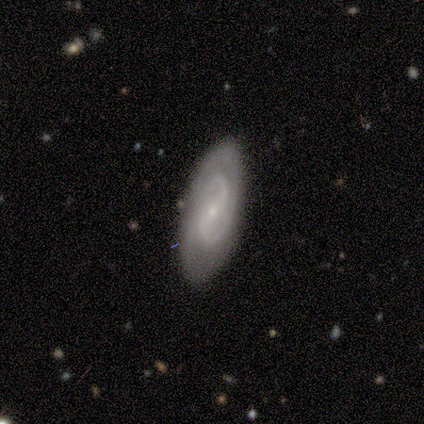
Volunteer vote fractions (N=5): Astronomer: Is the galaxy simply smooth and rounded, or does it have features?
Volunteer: featured or disk — 80%.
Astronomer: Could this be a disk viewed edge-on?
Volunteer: no — 100%.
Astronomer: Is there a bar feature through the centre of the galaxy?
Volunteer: weak — 50%.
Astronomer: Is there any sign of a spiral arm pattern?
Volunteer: yes — 100%.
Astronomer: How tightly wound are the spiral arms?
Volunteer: tight — 75%.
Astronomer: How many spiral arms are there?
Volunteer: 2 — 50%, tied with can't tell at 50%.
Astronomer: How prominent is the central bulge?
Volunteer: small — 100%.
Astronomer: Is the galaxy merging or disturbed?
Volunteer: none — 80%.